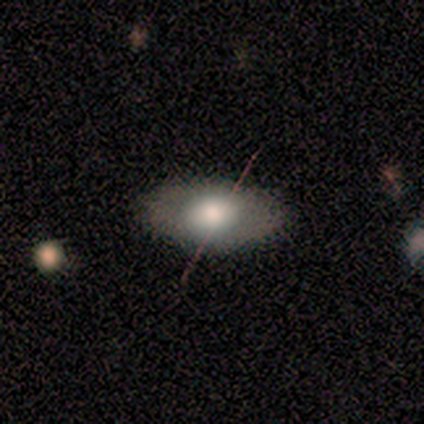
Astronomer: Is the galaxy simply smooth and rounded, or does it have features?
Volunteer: smooth — 50%.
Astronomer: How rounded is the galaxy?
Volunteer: in between — 100%.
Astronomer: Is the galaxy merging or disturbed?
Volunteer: none — 67%.